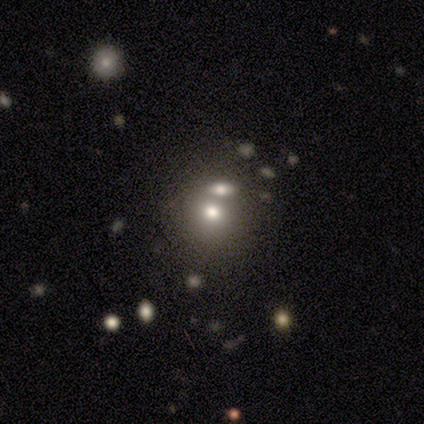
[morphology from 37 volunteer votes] smooth-or-featured: smooth: 51% | featured or disk: 32% | star or artifact: 16%
  how-rounded: round: 74% | in between: 26% | cigar-shaped: 0%
  merging: merger: 52% | none: 35% | minor disturbance: 10% | major disturbance: 3%